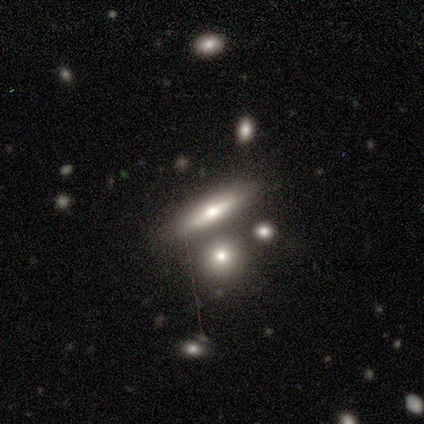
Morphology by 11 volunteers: Smooth or featured?
  - smooth: 55% *
  - featured or disk: 36%
  - star or artifact: 9%
How rounded?
  - cigar-shaped: 100% *
  - round: 0%
  - in between: 0%
Merging?
  - none: 80% *
  - merger: 20%
  - minor disturbance: 0%
  - major disturbance: 0%